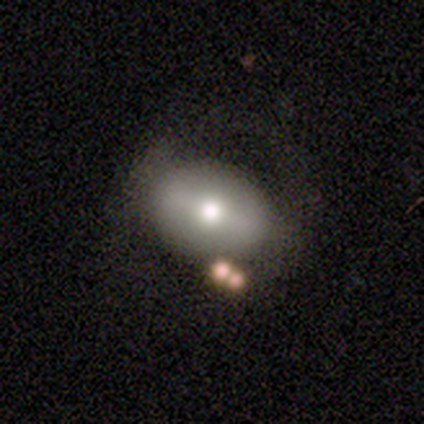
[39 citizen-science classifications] This appears to be a featured or disk galaxy (56%) with a weak bar (38%, tied with no), no spiral arms (76%) and a moderate central bulge (67%). Merging: none (59%).